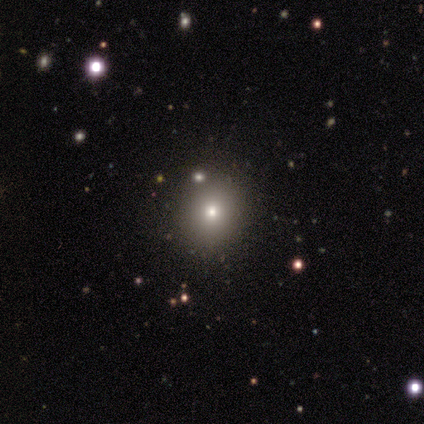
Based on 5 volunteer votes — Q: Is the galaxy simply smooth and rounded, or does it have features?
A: smooth — 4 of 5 (80%).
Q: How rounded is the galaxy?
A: round — 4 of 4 (100%).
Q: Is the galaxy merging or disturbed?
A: none — 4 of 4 (100%).